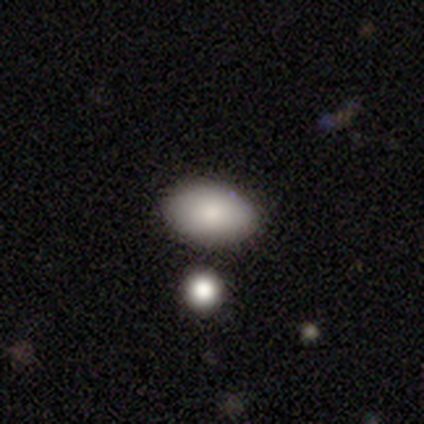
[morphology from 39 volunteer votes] smooth_or_featured: smooth (p=0.90) [alt: featured or disk p=0.10]
how_rounded: in between (p=0.94) [alt: round p=0.03]
merging: none (p=0.77) [alt: minor disturbance p=0.15]